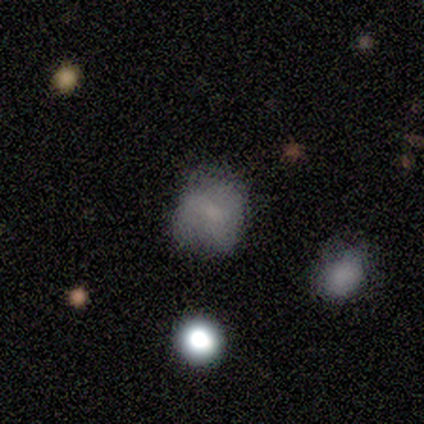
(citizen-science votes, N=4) This is possibly a smooth galaxy (50%). How rounded: clearly round (100%). Merging: marginally none (33%, tied with minor disturbance and major disturbance).